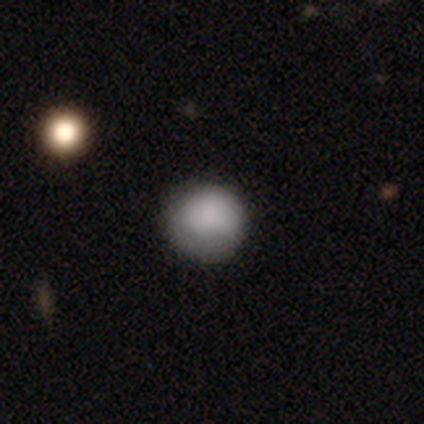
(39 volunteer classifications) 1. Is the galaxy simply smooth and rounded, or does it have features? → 87% smooth, 8% featured or disk, 5% star or artifact.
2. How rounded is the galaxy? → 82% round, 18% in between, 0% cigar-shaped.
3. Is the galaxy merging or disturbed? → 78% none, 14% minor disturbance, 8% major disturbance, 0% merger.